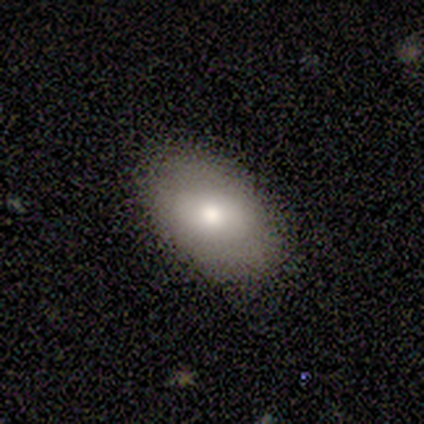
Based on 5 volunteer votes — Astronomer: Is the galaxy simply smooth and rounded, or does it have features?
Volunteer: smooth — 100%.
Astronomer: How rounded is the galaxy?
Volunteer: in between — 100%.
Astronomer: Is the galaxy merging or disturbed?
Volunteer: none — 60% (runner-up: minor disturbance, 40%).